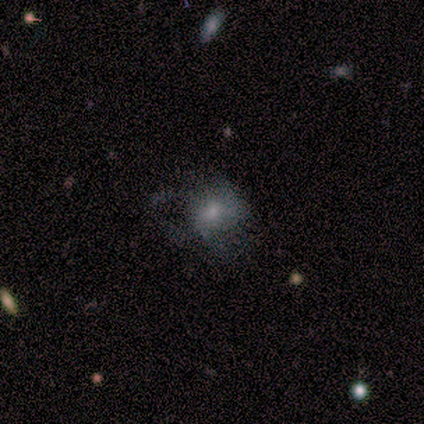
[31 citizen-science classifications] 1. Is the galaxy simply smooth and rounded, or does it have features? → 52% smooth, 39% featured or disk, 10% star or artifact.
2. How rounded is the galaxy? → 56% round, 44% in between, 0% cigar-shaped.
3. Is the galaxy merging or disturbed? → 43% major disturbance, 39% none, 14% minor disturbance, 4% merger.